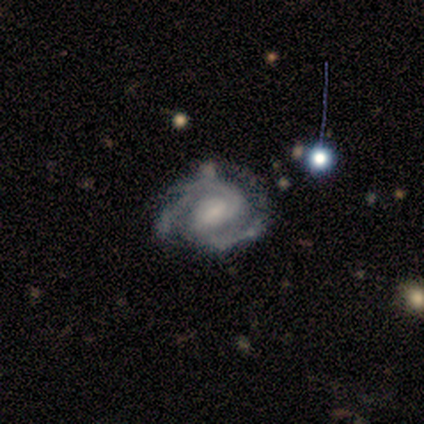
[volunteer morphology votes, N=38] A featured or disk galaxy (89%) with a weak bar (50%), 3 (58%) medium (55%) spiral arms (97%) and a small central bulge (47%). Merging: none (63%).